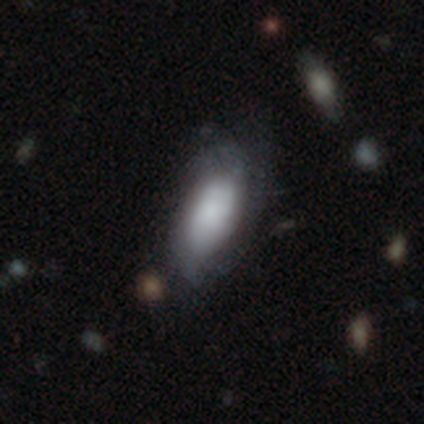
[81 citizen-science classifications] Smooth or featured? smooth (52%)
How rounded? in between (88%)
Merging? none (44%)